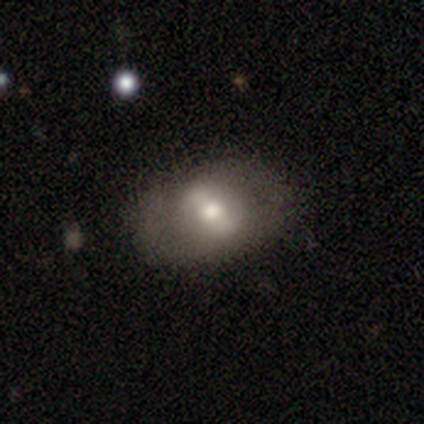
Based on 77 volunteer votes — A smooth galaxy with no disk features (53%) that is in between round and cigar-shaped (68%). Merging: none (36%).